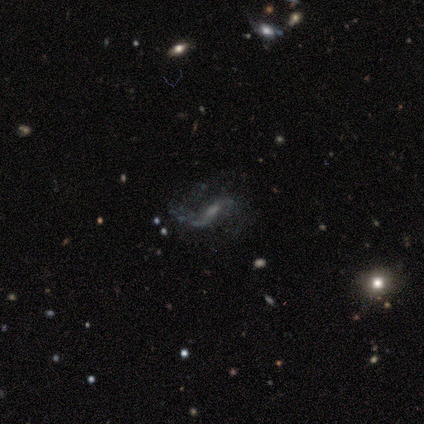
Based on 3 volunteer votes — smooth-or-featured: featured or disk: 100% | smooth: 0% | star or artifact: 0%
  disk-edge-on: no: 100% | yes: 0%
    bar: weak: 100% | strong: 0% | no: 0%
    has-spiral-arms: yes: 67% | no: 33%
      spiral-winding: medium: 50% (tied) | loose: 50% (tied) | tight: 0%
      spiral-arm-count: 2: 100% | 1: 0% | 3: 0% | 4: 0% | more than 4: 0% | can't tell: 0%
    bulge-size: small: 67% | moderate: 33% | dominant: 0% | large: 0% | none: 0%
  merging: none: 33% (tied) | minor disturbance: 33% (tied) | major disturbance: 33% (tied) | merger: 0%